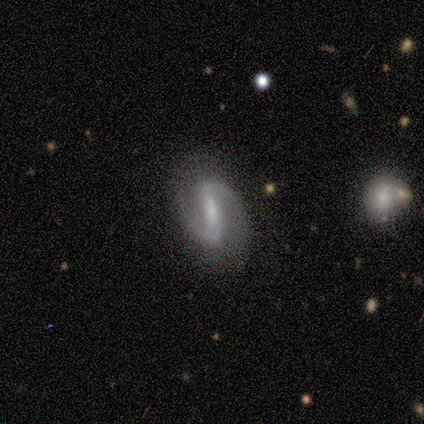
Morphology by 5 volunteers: A featured or disk galaxy (80%) with a strong bar (75%), 2 (100%) loose (50%) spiral arms (100%) and a dominant central bulge (25%, tied with large, moderate and none). Merging: none (100%).